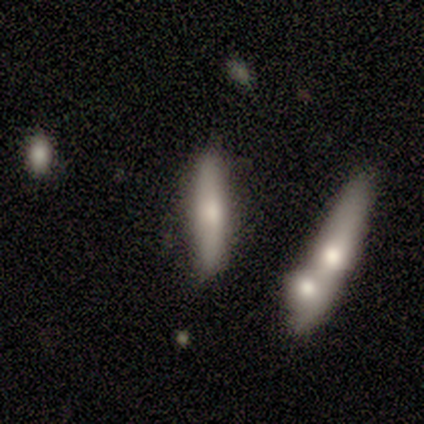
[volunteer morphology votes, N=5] featured or disk 80%, smooth 20%, star or artifact 0%. Down the decision tree: edge-on disk — yes (100%); edge-on bulge — rounded (75%); merging — none (60%).